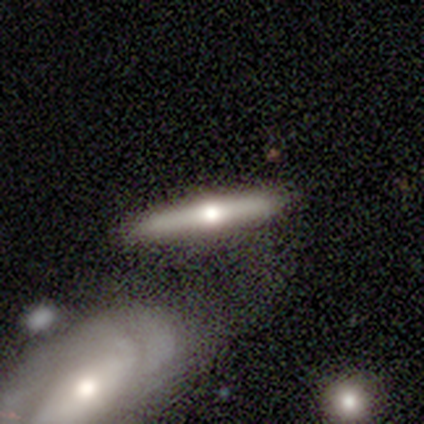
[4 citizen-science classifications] This is possibly a smooth galaxy (50%, tied with featured or disk). How rounded: clearly cigar-shaped (100%). Merging: likely none (75%).